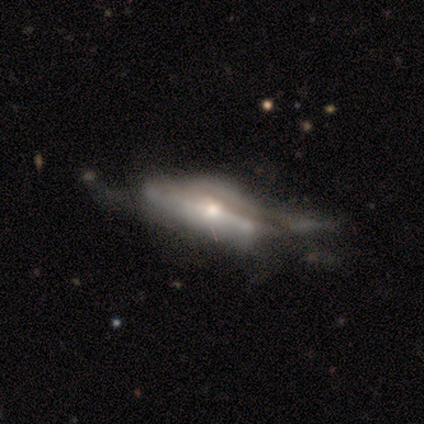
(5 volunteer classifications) Overall: featured or disk (80%). Edge-on disk: yes (75%). Edge-on bulge: rounded (100%). Merging: minor disturbance (40%, tied with major disturbance).